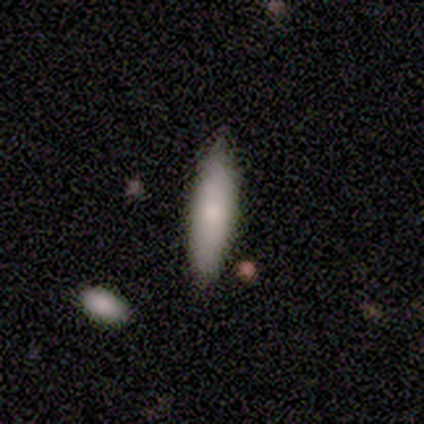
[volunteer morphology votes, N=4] smooth-or-featured: smooth: 100% | featured or disk: 0% | star or artifact: 0%
  how-rounded: cigar-shaped: 75% | in between: 25% | round: 0%
  merging: none: 75% | minor disturbance: 25% | major disturbance: 0% | merger: 0%